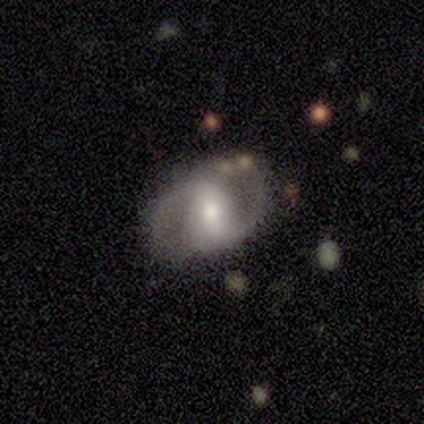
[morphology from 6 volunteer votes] Q: Smooth or featured?
A: smooth (50%); tied with: featured or disk (50%)
Q: How rounded?
A: in between (100%)
Q: Merging?
A: none (67%); runner-up: major disturbance (33%)